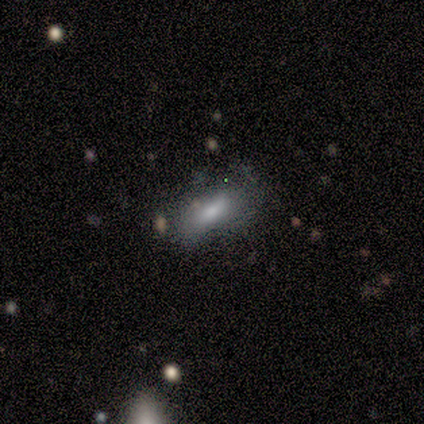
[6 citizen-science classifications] Smooth or featured? 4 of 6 (67%) said smooth. How rounded? 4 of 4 (100%) said in between. Merging? 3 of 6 (50%) said none.